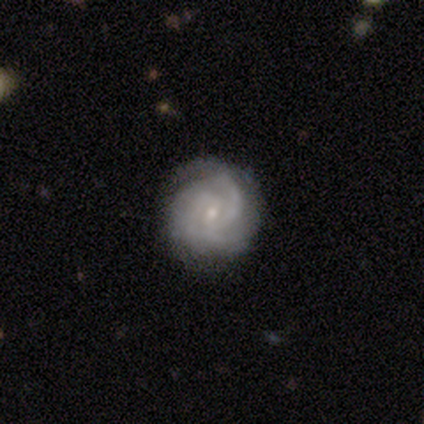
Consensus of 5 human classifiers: Q: Smooth or featured?
A: featured or disk (100%)
Q: Edge-on disk?
A: no (100%)
Q: Bar?
A: weak (60%); runner-up: no (40%)
Q: Spiral arms?
A: yes (100%)
Q: Spiral winding?
A: tight (60%); runner-up: medium (40%)
Q: Spiral arm count?
A: 3 (60%); runner-up: 2 (20%)
Q: Bulge size?
A: small (100%)
Q: Merging?
A: none (60%); runner-up: minor disturbance (40%)